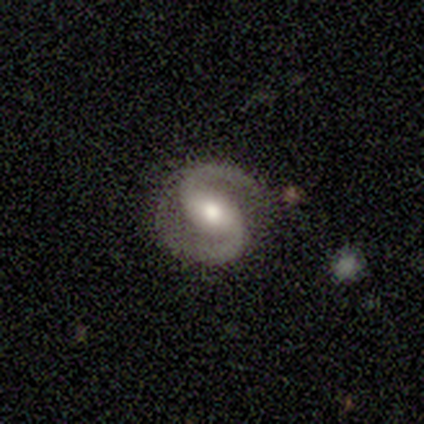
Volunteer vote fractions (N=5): Overall: featured or disk (100%). Edge-on disk: no (100%). Bar: weak (60%; no 40%). Spiral arms: yes (100%). Spiral arm count: 2 (100%). Spiral winding: medium (60%; tight 20%). Bulge size: moderate (80%). Merging: minor disturbance (60%; none 40%).